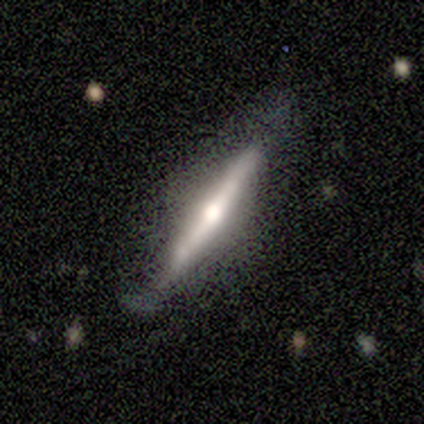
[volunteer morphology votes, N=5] Volunteers were most divided on "smooth or featured": smooth: 60%, featured or disk: 40%, star or artifact: 0%. More confident: how rounded — cigar-shaped (100%); merging — none (60%).